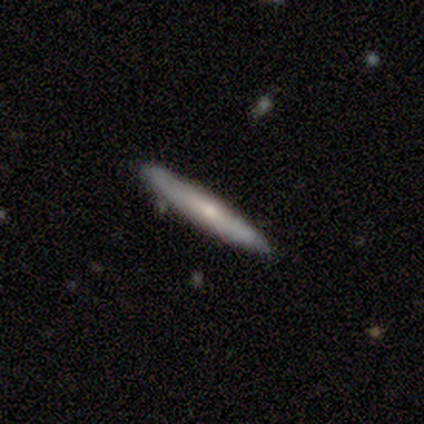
This appears to be a smooth galaxy with no disk features (47%, tied with featured or disk) that is cigar-shaped (89%). Merging: none (92%).